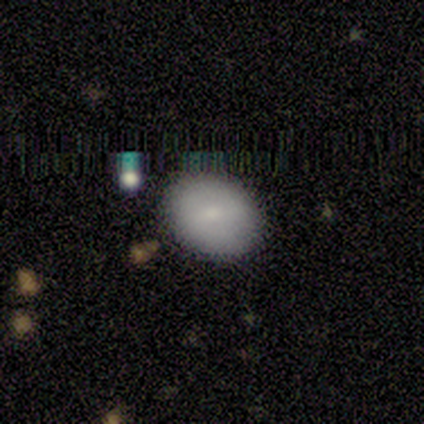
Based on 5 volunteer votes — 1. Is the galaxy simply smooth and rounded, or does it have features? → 100% smooth, 0% featured or disk, 0% star or artifact.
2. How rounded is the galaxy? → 80% in between, 20% round, 0% cigar-shaped.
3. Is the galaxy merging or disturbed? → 80% none, 20% minor disturbance, 0% major disturbance, 0% merger.